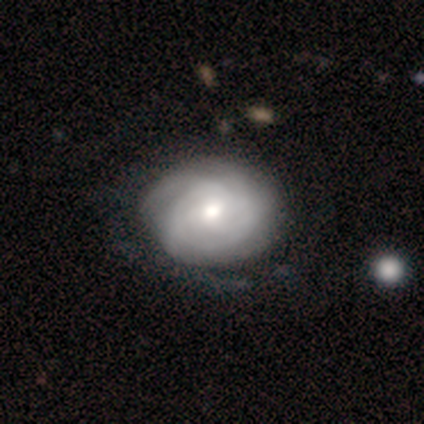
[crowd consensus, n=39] Overall: featured or disk (82%). Edge-on disk: no (100%). Bar: no (69%). Spiral arms: yes (91%). Spiral arm count: can't tell (55%; 3 21%). Spiral winding: tight (69%). Bulge size: moderate (72%). Merging: none (53%).